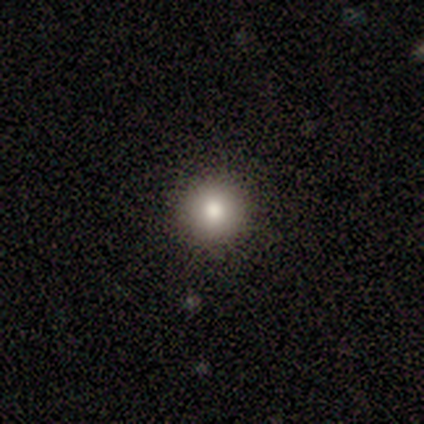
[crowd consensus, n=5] smooth_or_featured: smooth (p=0.80) [alt: star or artifact p=0.20]
how_rounded: round (p=1.00)
merging: none (p=1.00)